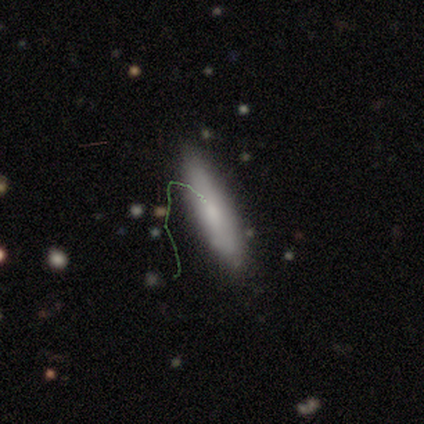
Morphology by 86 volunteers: Volunteers were most divided on "smooth or featured": smooth: 64%, featured or disk: 27%, star or artifact: 9%. More confident: merging — none (82%); how rounded — cigar-shaped (76%).